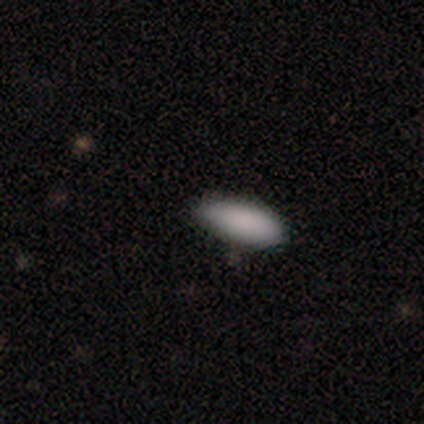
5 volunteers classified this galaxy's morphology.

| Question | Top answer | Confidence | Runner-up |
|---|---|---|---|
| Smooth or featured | smooth | 80% | star or artifact (20%) |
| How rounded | in between | 100% | — |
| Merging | none | 50% | tied: minor disturbance (50%) |